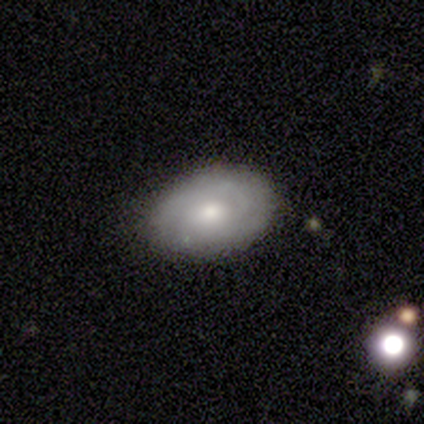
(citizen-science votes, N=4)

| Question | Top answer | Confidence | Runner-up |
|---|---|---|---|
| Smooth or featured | featured or disk | 75% | smooth (25%) |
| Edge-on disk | no | 100% | — |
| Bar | weak | 67% | no (33%) |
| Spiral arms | no | 67% | yes (33%) |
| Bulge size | small | 67% | moderate (33%) |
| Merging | none | 75% | minor disturbance (25%) |